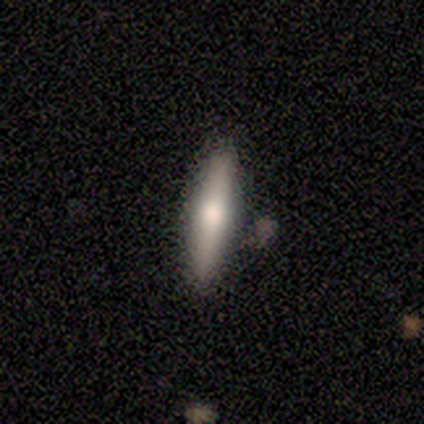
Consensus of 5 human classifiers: smooth_or_featured: featured or disk (p=0.60) [alt: smooth p=0.40]
disk_edge_on: yes (p=1.00)
edge_on_bulge: rounded (p=1.00)
merging: none (p=1.00)